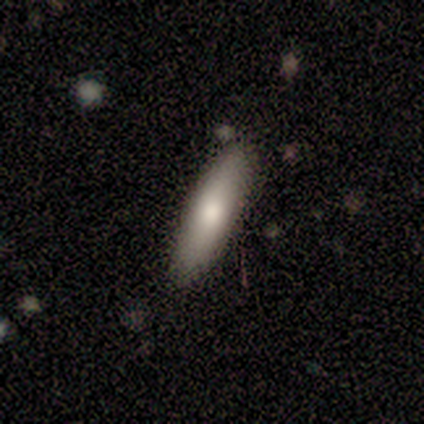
A smooth galaxy with no disk features (64%) that is cigar-shaped (57%). Merging: none (70%).